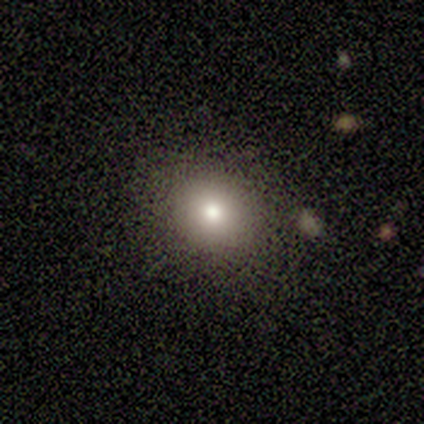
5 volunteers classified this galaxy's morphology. This is clearly a smooth galaxy (80%). How rounded: clearly round (100%). Merging: likely none (75%).